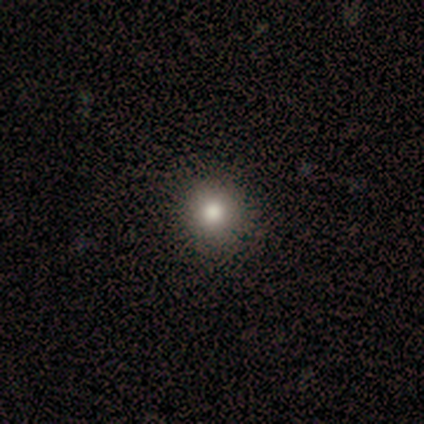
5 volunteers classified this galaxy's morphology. smooth_or_featured: smooth (p=0.60) [alt: featured or disk p=0.40]
how_rounded: round (p=1.00)
merging: none (p=1.00)